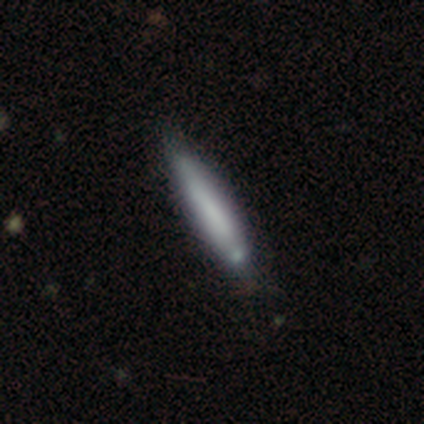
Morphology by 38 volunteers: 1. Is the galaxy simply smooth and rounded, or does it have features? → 61% smooth, 37% featured or disk, 3% star or artifact.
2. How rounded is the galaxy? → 96% cigar-shaped, 4% in between, 0% round.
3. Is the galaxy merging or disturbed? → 46% none, 14% minor disturbance, 8% merger, 0% major disturbance.